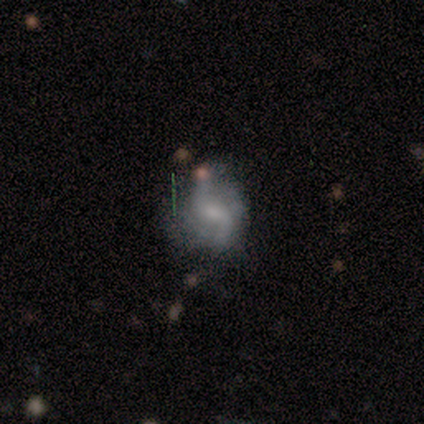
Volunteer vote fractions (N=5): This is clearly a featured or disk galaxy (100%). It is clearly not viewed edge-on (100%). Bar: marginally weak (40%, tied with no). Spiral arm pattern: clearly yes (80%). Spiral arm count: clearly 2 (100%). Spiral winding: possibly medium (50%, tied with loose). Central bulge: likely small (60%). Merging: clearly none (80%).